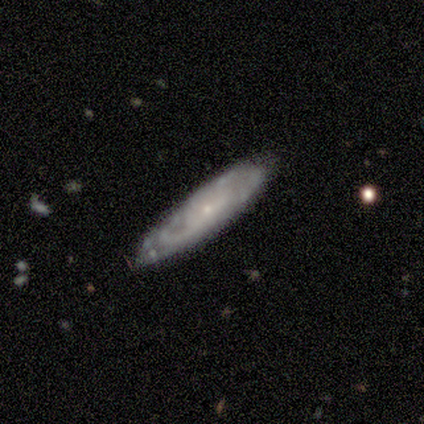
Smooth or featured?
  - featured or disk: 64% *
  - smooth: 30%
  - star or artifact: 7%
Edge-on disk?
  - no: 71% *
  - yes: 29%
Bar?
  - no: 95% *
  - weak: 5%
  - strong: 0%
Spiral arms?
  - yes: 85% *
  - no: 15%
Spiral winding?
  - tight: 59% *
  - medium: 29%
  - loose: 12%
Spiral arm count?
  - can't tell: 71% *
  - 2: 12%
  - 1: 6%
  - 3: 6%
  - 4: 6%
  - more than 4: 0%
Bulge size?
  - small: 85% *
  - moderate: 15%
  - dominant: 0%
  - large: 0%
  - none: 0%
Merging?
  - none: 61% *
  - minor disturbance: 32%
  - merger: 5%
  - major disturbance: 2%